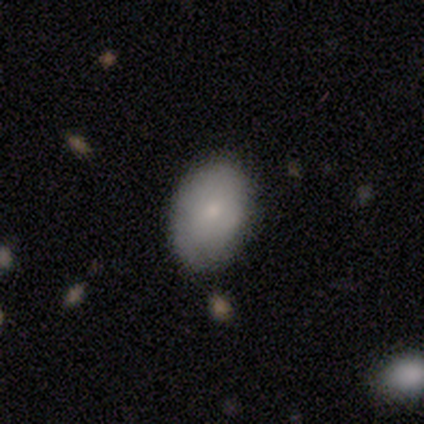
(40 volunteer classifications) smooth-or-featured: smooth: 72% | featured or disk: 18% | star or artifact: 10%
  how-rounded: in between: 83% | round: 17% | cigar-shaped: 0%
  merging: none: 83% | minor disturbance: 17% | major disturbance: 0% | merger: 0%